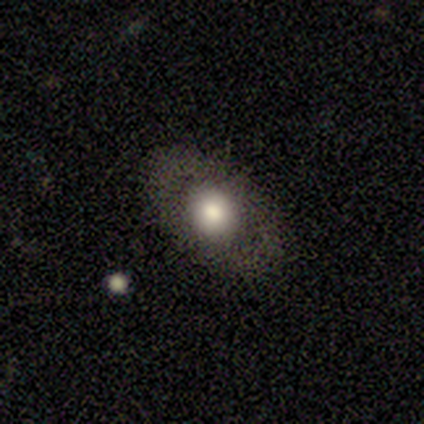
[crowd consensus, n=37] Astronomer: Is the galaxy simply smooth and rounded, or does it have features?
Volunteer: smooth — 65%.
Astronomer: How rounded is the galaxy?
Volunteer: in between — 75%.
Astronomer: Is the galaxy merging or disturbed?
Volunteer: none — 91%.